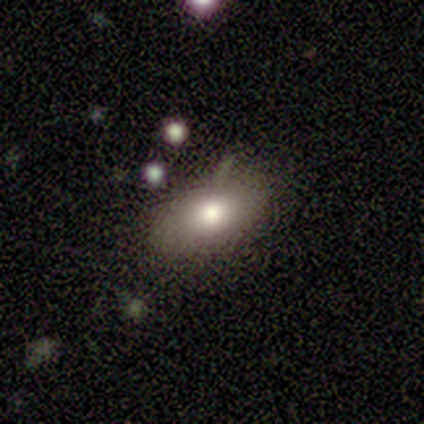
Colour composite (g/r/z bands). It shows a smooth galaxy with no disk features (100%) that is in between round and cigar-shaped (100%). Merging: none (100%).